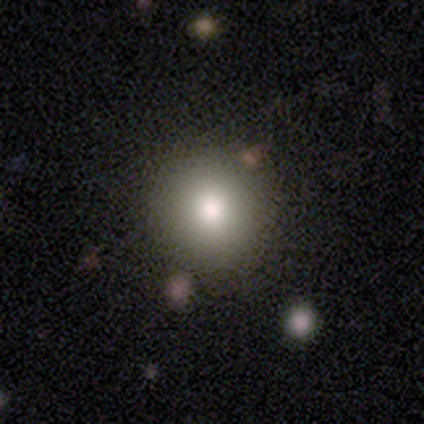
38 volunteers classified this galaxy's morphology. smooth-or-featured: smooth: 89% | featured or disk: 5% | star or artifact: 5%
  how-rounded: round: 97% | in between: 3% | cigar-shaped: 0%
  merging: none: 86% | minor disturbance: 6% | merger: 6% | major disturbance: 3%